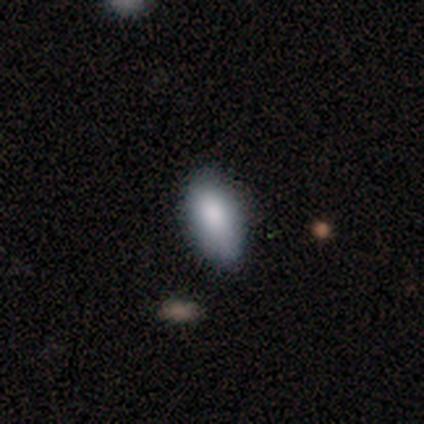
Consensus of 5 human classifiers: Smooth or featured? smooth (100%)
How rounded? in between (100%)
Merging? none (60%)